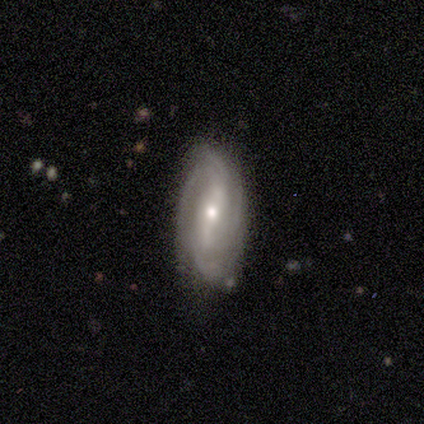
This is likely a featured or disk galaxy (60%). It is clearly not viewed edge-on (100%). Bar: marginally strong (33%, tied with weak and no). Spiral arm pattern: clearly yes (100%). Spiral arm count: marginally 2 (33%, tied with 4 and can't tell). Spiral winding: marginally tight (33%, tied with medium and loose). Central bulge: likely moderate (67%). Merging: likely none (60%).